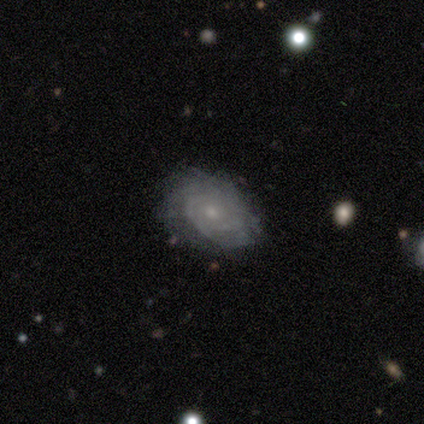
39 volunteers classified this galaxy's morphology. A featured or disk galaxy (79%) with no bar (96%), tight (81%) spiral arms (93%) and a small central bulge (64%).

Vote fractions:
- Smooth or featured? featured or disk: 79% / smooth: 13% / star or artifact: 8%
- Edge-on disk? no: 90% / yes: 10%
- Bar? no: 96% / weak: 4% / strong: 0%
- Spiral arms? yes: 93% / no: 7%
- Spiral winding? tight: 81% / medium: 15% / loose: 4%
- Spiral arm count? can't tell: 62% / 2: 15% / 1: 8% / 3: 8% / 4: 8% / more than 4: 0%
- Bulge size? small: 64% / moderate: 25% / none: 11% / dominant: 0% / large: 0%
- Merging? none: 86% / minor disturbance: 14% / major disturbance: 0% / merger: 0%